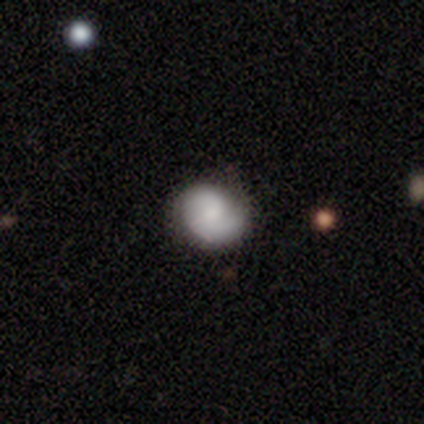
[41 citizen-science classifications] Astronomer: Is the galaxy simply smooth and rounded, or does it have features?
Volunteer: featured or disk — 61% (runner-up: smooth, 39%).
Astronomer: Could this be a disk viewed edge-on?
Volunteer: no — 100%.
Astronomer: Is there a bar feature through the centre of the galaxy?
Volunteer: no — 52% (runner-up: weak, 44%).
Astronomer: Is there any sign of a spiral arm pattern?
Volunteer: yes — 92%.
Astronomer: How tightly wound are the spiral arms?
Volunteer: tight — 35%, tied with loose at 35%.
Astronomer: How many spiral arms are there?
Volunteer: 2 — 61%.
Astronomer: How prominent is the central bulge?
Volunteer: moderate — 36%, tied with small at 36%.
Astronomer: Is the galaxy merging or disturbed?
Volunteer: none — 76%.